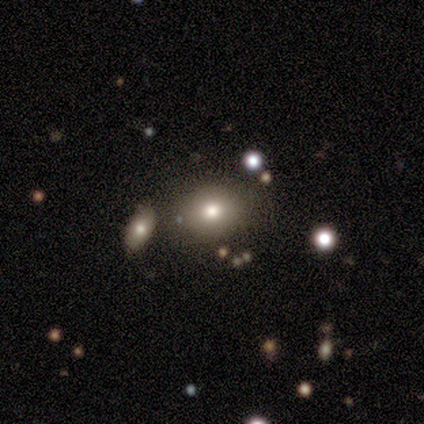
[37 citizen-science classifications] A smooth galaxy with no disk features (73%) that is round (52%).

Vote fractions:
- Smooth or featured? smooth: 73% / featured or disk: 14% / star or artifact: 14%
- How rounded? round: 52% / in between: 48% / cigar-shaped: 0%
- Merging? none: 88% / merger: 9% / minor disturbance: 3% / major disturbance: 0%